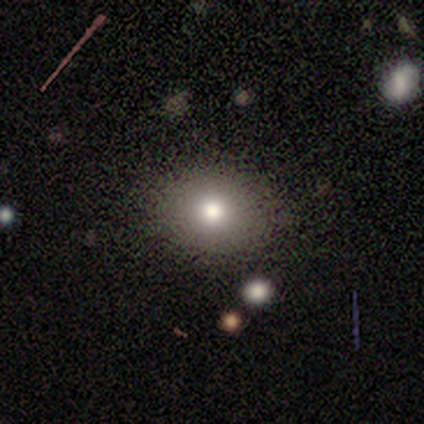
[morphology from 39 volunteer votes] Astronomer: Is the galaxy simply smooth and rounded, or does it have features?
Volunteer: smooth — 72%.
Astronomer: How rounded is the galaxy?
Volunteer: round — 54% (runner-up: in between, 46%).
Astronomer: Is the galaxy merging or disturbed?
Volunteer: none — 82%.